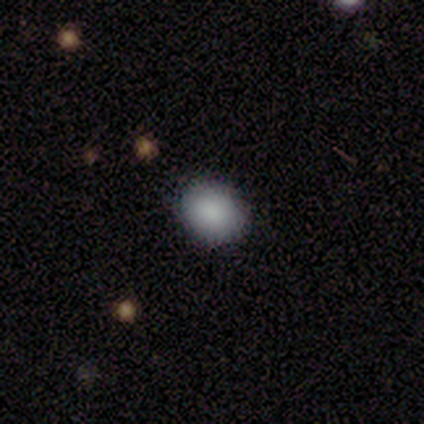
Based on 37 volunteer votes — smooth 81%, star or artifact 11%, featured or disk 8%. Down the decision tree: how rounded — in between (63%); merging — none (97%).